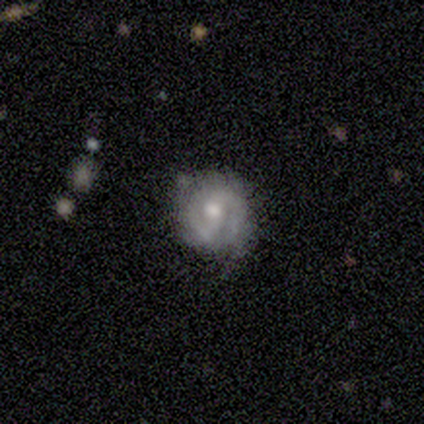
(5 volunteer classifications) Overall: featured or disk (80%). Edge-on disk: no (100%). Bar: weak (50%; strong 25%). Spiral arms: yes (100%). Spiral arm count: 2 (75%). Spiral winding: loose (50%; tight 25%). Bulge size: moderate (75%). Merging: none (60%; minor disturbance 20%).